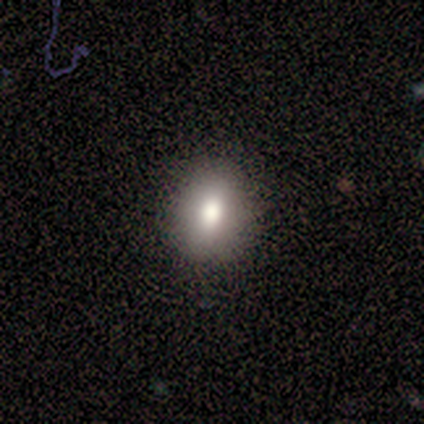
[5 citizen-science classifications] smooth-or-featured: smooth: 80% | featured or disk: 20% | star or artifact: 0%
  how-rounded: round: 50% (tied) | in between: 50% (tied) | cigar-shaped: 0%
  merging: none: 80% | major disturbance: 20% | minor disturbance: 0% | merger: 0%